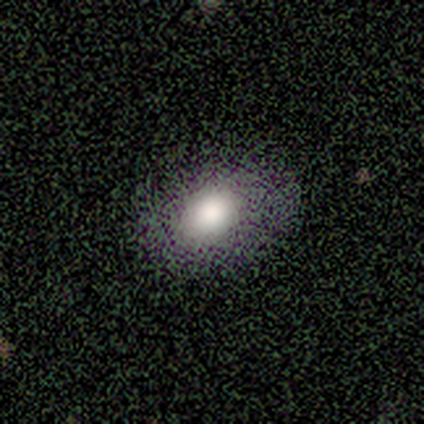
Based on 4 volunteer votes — Smooth or featured? smooth (100%)
How rounded? in between (75%)
Merging? none (100%)